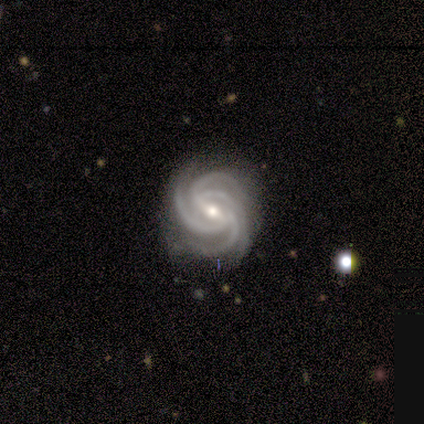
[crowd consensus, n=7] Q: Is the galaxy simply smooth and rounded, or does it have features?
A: featured or disk — 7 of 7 (100%).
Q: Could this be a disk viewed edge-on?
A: no — 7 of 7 (100%).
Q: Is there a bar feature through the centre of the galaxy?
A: strong — 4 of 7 (57%).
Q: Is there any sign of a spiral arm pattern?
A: yes — 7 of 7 (100%).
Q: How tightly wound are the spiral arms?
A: tight — 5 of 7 (71%).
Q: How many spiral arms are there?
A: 4 — 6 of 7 (86%).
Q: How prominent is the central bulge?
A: moderate — 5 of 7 (71%).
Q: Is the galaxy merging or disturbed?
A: none — 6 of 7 (86%).